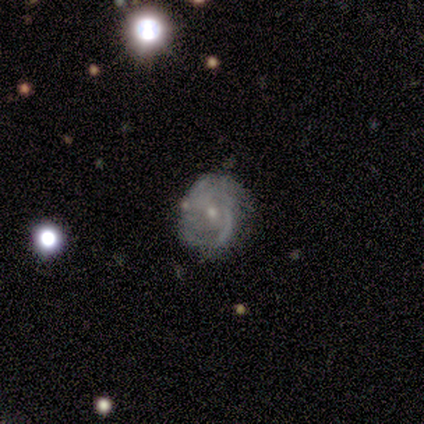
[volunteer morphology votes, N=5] A featured or disk galaxy (80%) with no bar (100%), 3 (50%) medium (75%) spiral arms (100%) and a moderate central bulge (50%, tied with small). Merging: none (60%).